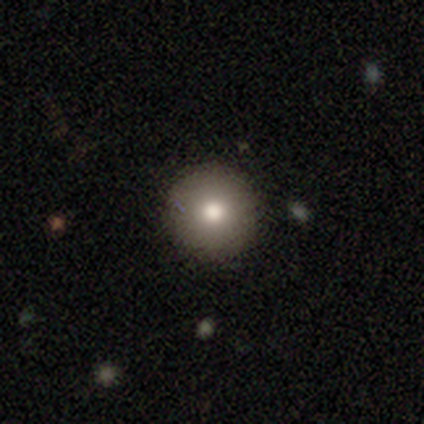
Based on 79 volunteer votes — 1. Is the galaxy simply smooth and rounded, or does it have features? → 77% smooth, 15% featured or disk, 8% star or artifact.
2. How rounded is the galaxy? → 100% round, 0% in between, 0% cigar-shaped.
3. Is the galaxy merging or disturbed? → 51% none, 7% minor disturbance, 0% major disturbance, 0% merger.